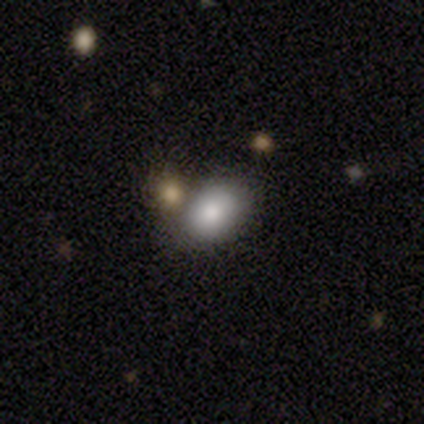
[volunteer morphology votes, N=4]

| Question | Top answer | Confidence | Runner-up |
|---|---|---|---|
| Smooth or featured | smooth | 100% | — |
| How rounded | in between | 100% | — |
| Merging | none | 100% | — |